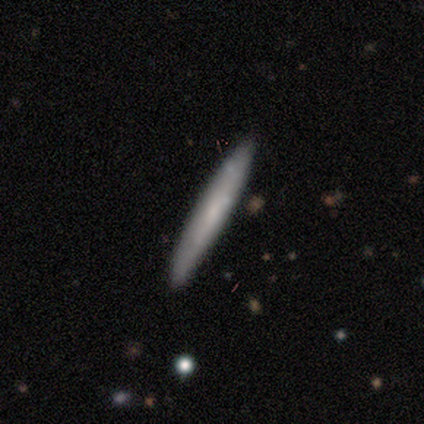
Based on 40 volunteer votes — Smooth or featured?
  - smooth: 55% *
  - featured or disk: 40%
  - star or artifact: 5%
How rounded?
  - cigar-shaped: 100% *
  - round: 0%
  - in between: 0%
Merging?
  - none: 71% *
  - minor disturbance: 24%
  - major disturbance: 3%
  - merger: 3%